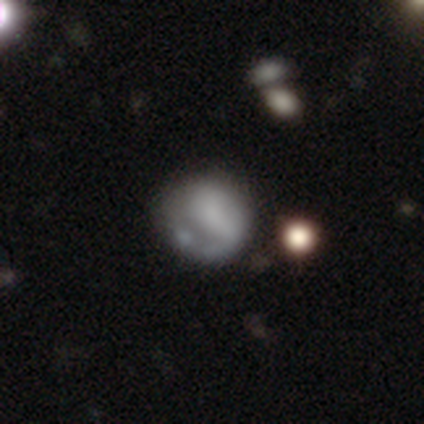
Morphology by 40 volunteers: Smooth or featured?
  - smooth: 55% *
  - featured or disk: 40%
  - star or artifact: 5%
How rounded?
  - round: 82% *
  - in between: 14%
  - cigar-shaped: 5%
Merging?
  - none: 45% *
  - major disturbance: 16%
  - minor disturbance: 11%
  - merger: 11%